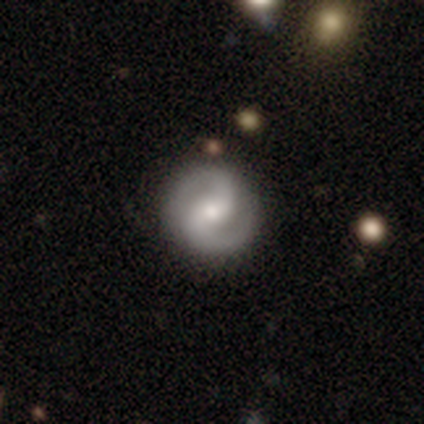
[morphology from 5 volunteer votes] Smooth or featured: featured or disk — 80% (smooth — 20%)
Edge-on disk: no — 100%
Bar: weak — 50% (strong — 25%)
Spiral arms: yes — 75% (no — 25%)
Spiral winding: medium — 100%
Spiral arm count: 2 — 100%
Bulge size: moderate — 50% (tied with small — 50%)
Merging: none — 80% (major disturbance — 20%)